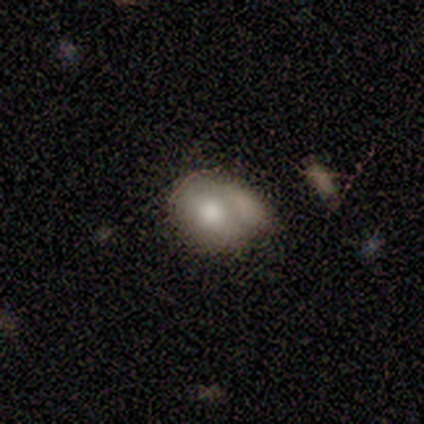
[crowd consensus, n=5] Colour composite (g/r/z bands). It shows a smooth galaxy with no disk features (60%) that is round (67%). Merging: merger (40%).